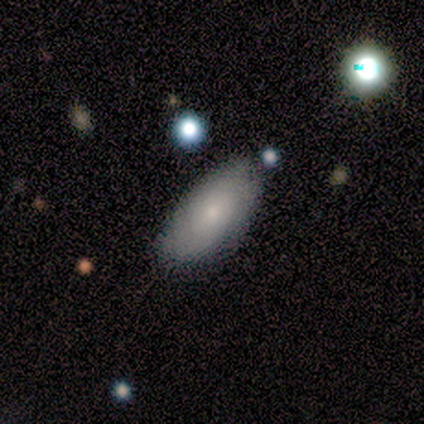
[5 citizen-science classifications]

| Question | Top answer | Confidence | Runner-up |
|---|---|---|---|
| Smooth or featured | smooth | 100% | — |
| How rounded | in between | 80% | cigar-shaped (20%) |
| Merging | none | 80% | minor disturbance (20%) |